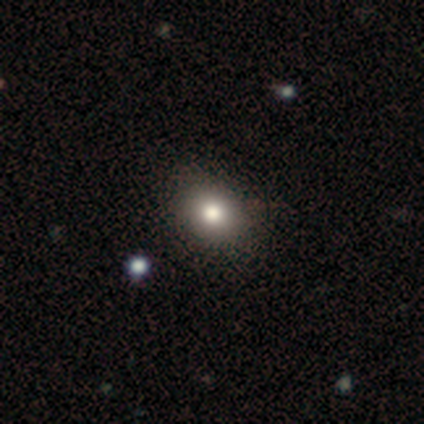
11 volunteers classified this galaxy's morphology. smooth 73%, star or artifact 27%, featured or disk 0%. Down the decision tree: how rounded — round (62%); merging — none (88%).